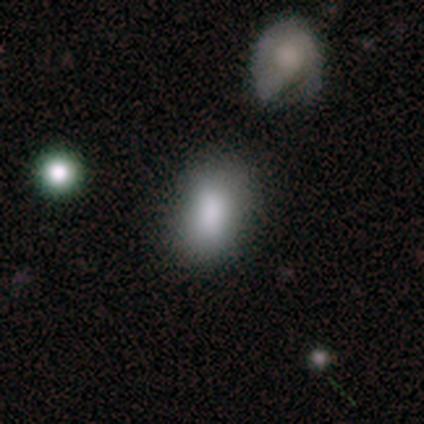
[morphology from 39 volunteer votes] Smooth or featured?
  - smooth: 87% *
  - featured or disk: 10%
  - star or artifact: 3%
How rounded?
  - in between: 85% *
  - round: 15%
  - cigar-shaped: 0%
Merging?
  - none: 66% *
  - minor disturbance: 21%
  - merger: 11%
  - major disturbance: 3%